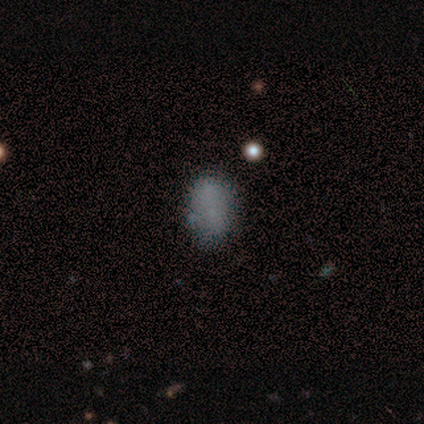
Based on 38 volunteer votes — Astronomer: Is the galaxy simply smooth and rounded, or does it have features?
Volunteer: smooth — 68%.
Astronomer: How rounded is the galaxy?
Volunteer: in between — 77%.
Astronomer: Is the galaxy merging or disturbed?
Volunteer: none — 84%.